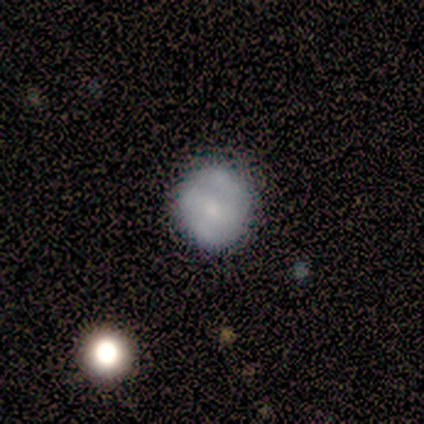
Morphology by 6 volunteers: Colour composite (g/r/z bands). It shows a smooth galaxy with no disk features (67%) that is round (75%). Merging: none (83%).